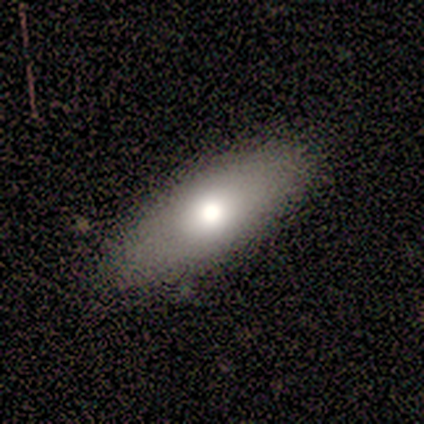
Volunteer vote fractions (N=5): Morphology: type=smooth (100%); roundness=in between (100%); merging=none (80%).